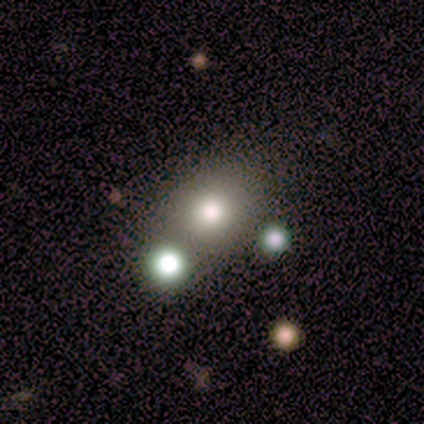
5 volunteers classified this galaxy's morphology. This is likely a smooth galaxy (60%). How rounded: clearly round (100%). Merging: possibly none (50%).